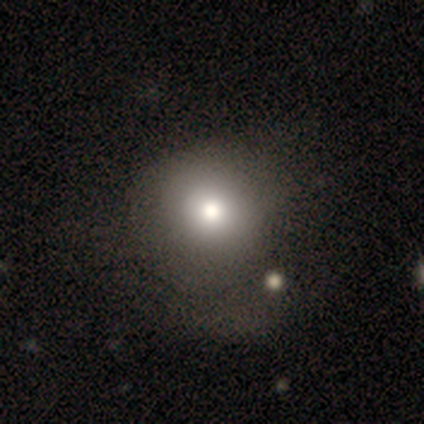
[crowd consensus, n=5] smooth_or_featured: smooth (p=0.80) [alt: star or artifact p=0.20]
how_rounded: round (p=0.75) [alt: in between p=0.25]
merging: none (p=0.50) [alt: minor disturbance p=0.25]